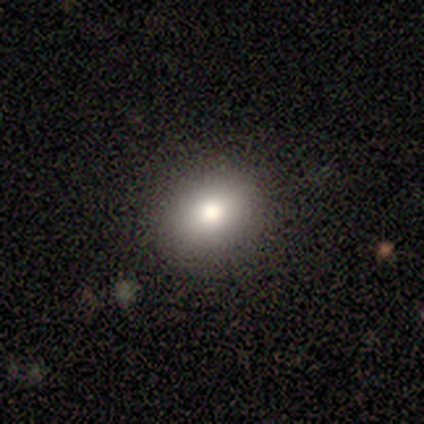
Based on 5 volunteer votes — Morphology: type=smooth (100%); roundness=round (100%); merging=none (100%).